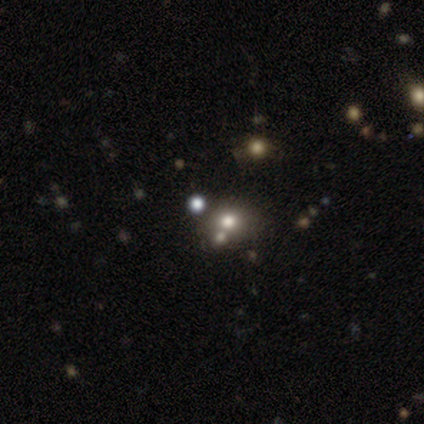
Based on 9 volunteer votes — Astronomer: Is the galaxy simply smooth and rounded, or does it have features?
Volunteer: smooth — 56% (runner-up: star or artifact, 44%).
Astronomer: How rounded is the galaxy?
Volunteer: round — 80%.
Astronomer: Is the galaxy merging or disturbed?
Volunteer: none — 60% (runner-up: merger, 40%).